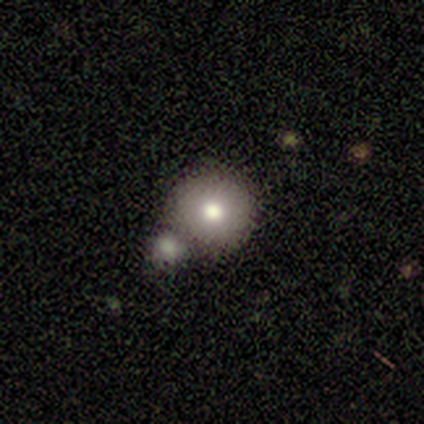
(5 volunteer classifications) Smooth or featured? 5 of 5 (100%) said smooth. How rounded? 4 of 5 (80%) said round. Merging? 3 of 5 (60%) said none.